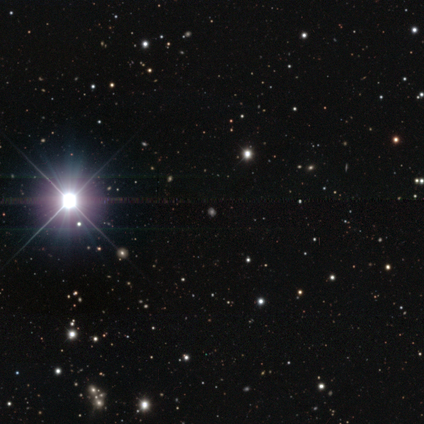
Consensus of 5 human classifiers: This is clearly a star or artifact rather than a galaxy (80%).